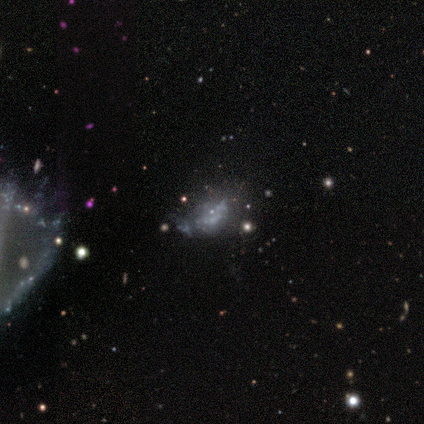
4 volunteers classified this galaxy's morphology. This is likely a featured or disk galaxy (75%). It is likely not viewed edge-on (67%). Bar: clearly no (100%). Spiral arm pattern: clearly no (100%). Central bulge: clearly none (100%). Merging: possibly none (50%).